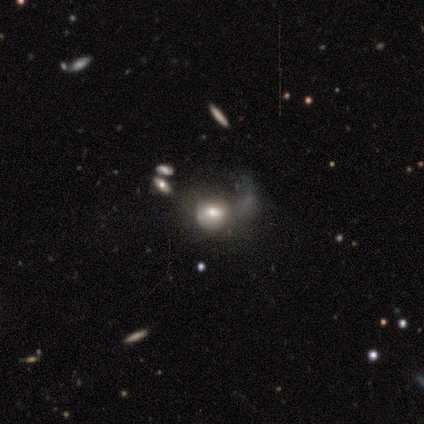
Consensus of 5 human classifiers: Smooth or featured?
  - featured or disk: 60% *
  - smooth: 40%
  - star or artifact: 0%
Edge-on disk?
  - no: 100% *
  - yes: 0%
Bar?
  - no: 67% *
  - weak: 33%
  - strong: 0%
Spiral arms?
  - no: 67% *
  - yes: 33%
Bulge size?
  - moderate: 100% *
  - dominant: 0%
  - large: 0%
  - small: 0%
  - none: 0%
Merging?
  - none: 40% * (tied)
  - major disturbance: 40% * (tied)
  - merger: 20%
  - minor disturbance: 0%